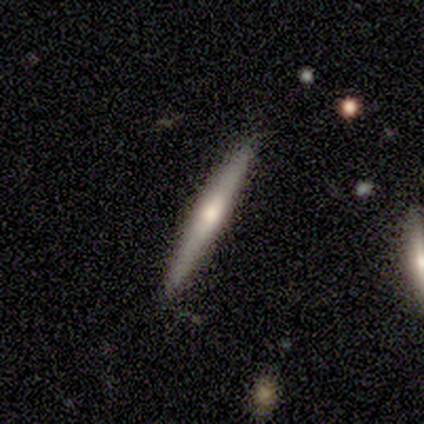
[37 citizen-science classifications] Smooth or featured? featured or disk (51%)
Edge-on disk? yes (100%)
Edge-on bulge? rounded (74%)
Merging? none (97%)